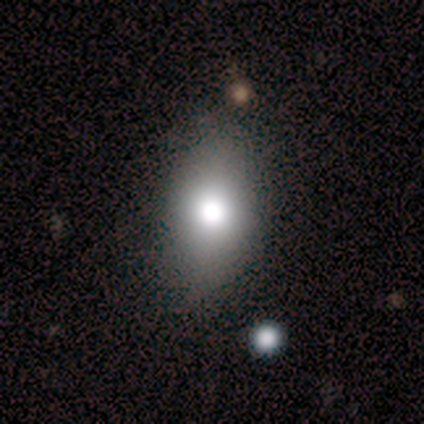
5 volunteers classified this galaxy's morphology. smooth 60%, featured or disk 20%, star or artifact 20%. Down the decision tree: how rounded — round (67%); merging — none (75%).